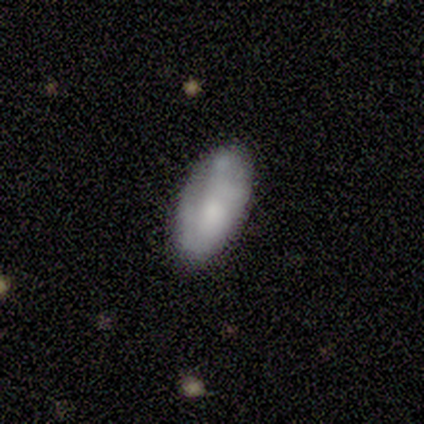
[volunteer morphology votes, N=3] Smooth or featured?
  - smooth: 67% *
  - featured or disk: 33%
  - star or artifact: 0%
How rounded?
  - in between: 100% *
  - round: 0%
  - cigar-shaped: 0%
Merging?
  - none: 67% *
  - minor disturbance: 33%
  - major disturbance: 0%
  - merger: 0%